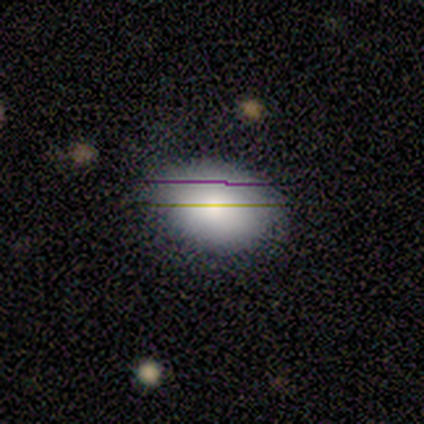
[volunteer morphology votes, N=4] smooth_or_featured: smooth (p=0.75) [alt: star or artifact p=0.25]
how_rounded: in between (p=1.00)
merging: minor disturbance (p=1.00)